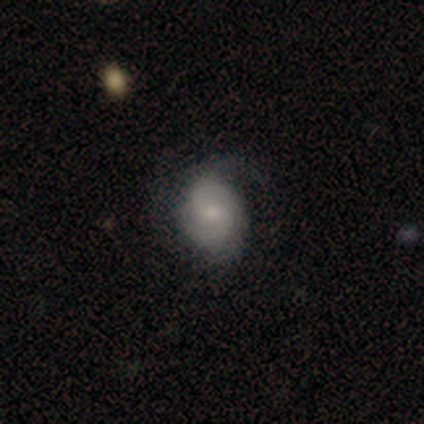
A featured or disk galaxy (80%) with no bar (100%), medium (75%) spiral arms (100%) and a small central bulge (75%). Merging: none (60%).